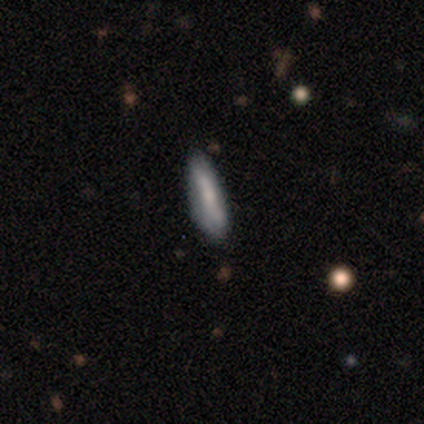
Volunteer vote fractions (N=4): Overall: smooth (100%). How rounded: cigar-shaped (75%). Merging: none (100%).